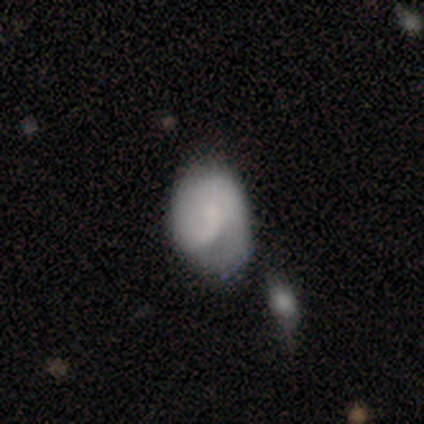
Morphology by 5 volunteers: A featured or disk galaxy (60%) with no bar (67%), 1 (100%) tight (50%, tied with loose) spiral arms (67%) and no central bulge (67%). Merging: none (25%, tied with minor disturbance, major disturbance and merger).